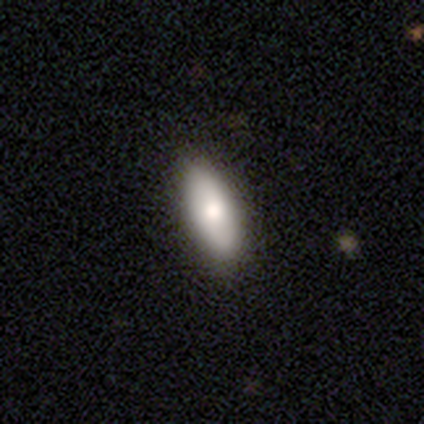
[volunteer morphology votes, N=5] Smooth or featured?
  - smooth: 80% *
  - featured or disk: 20%
  - star or artifact: 0%
How rounded?
  - in between: 75% *
  - cigar-shaped: 25%
  - round: 0%
Merging?
  - none: 80% *
  - minor disturbance: 20%
  - major disturbance: 0%
  - merger: 0%